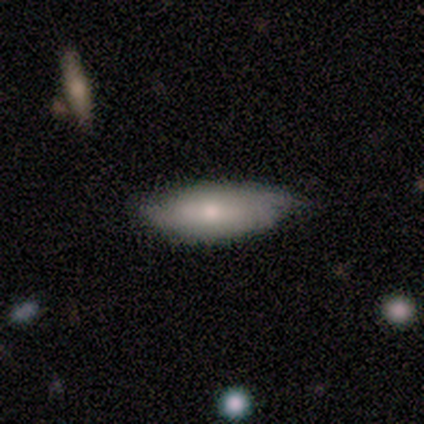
smooth 68%, featured or disk 26%, star or artifact 5%. Down the decision tree: how rounded — in between (69%); merging — none (67%).